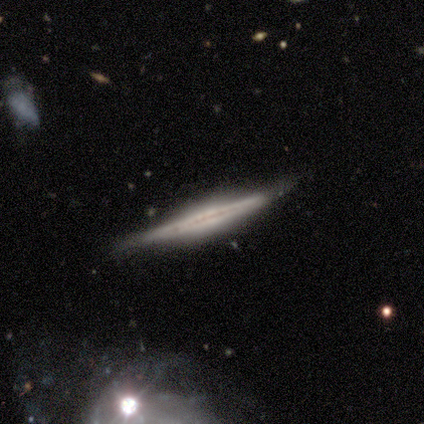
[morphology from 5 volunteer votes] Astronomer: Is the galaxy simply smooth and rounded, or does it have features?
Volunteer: featured or disk — 60% (runner-up: smooth, 40%).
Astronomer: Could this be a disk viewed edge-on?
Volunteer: yes — 100%.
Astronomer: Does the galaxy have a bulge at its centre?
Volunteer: boxy — 67%.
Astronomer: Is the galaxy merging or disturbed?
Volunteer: none — 100%.